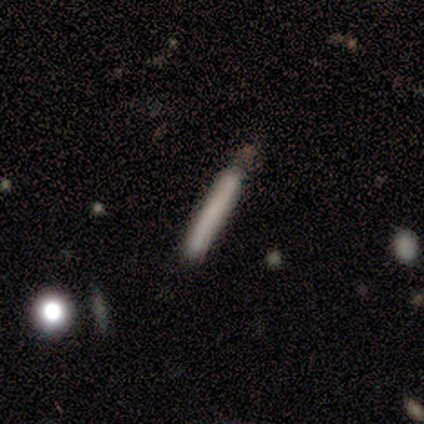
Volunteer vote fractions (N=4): Volunteers were most divided on "smooth or featured": smooth: 75%, featured or disk: 25%, star or artifact: 0%. More confident: how rounded — cigar-shaped (100%); merging — minor disturbance (75%).